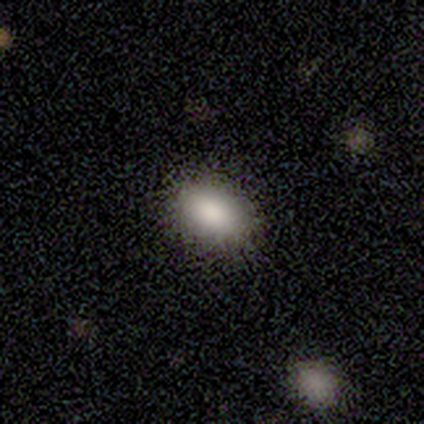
smooth 89%, featured or disk 11%, star or artifact 0%. Down the decision tree: how rounded — in between (75%); merging — none (89%).